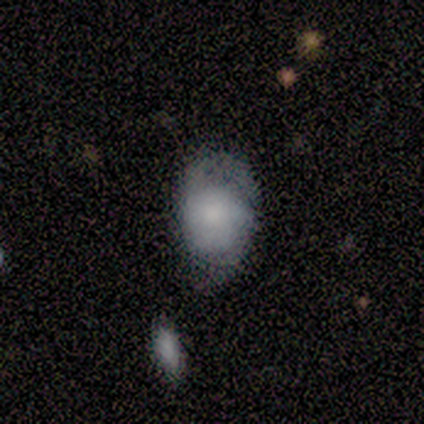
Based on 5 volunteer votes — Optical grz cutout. It shows a smooth galaxy with no disk features (60%) that is round (67%). Merging: none (40%, tied with minor disturbance).